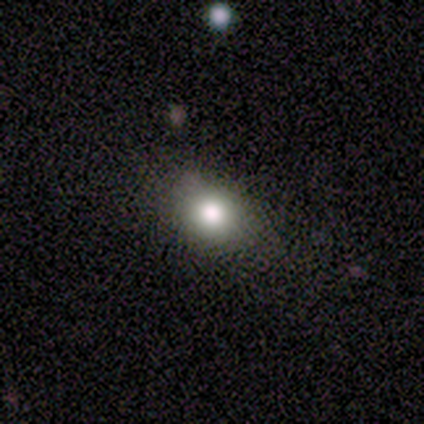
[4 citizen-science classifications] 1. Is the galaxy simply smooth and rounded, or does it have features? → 100% smooth, 0% featured or disk, 0% star or artifact.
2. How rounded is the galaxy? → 100% in between, 0% round, 0% cigar-shaped.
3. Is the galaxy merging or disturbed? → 100% none, 0% minor disturbance, 0% major disturbance, 0% merger.